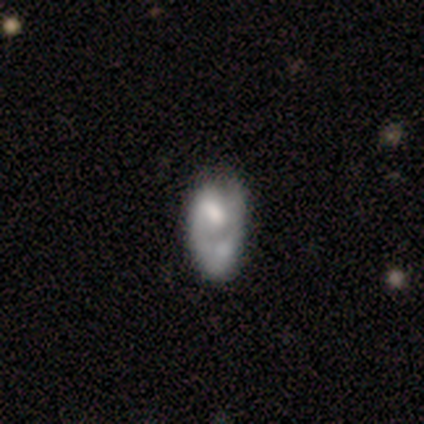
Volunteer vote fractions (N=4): smooth-or-featured: smooth: 50% (tied) | featured or disk: 50% (tied) | star or artifact: 0%
  how-rounded: round: 50% (tied) | cigar-shaped: 50% (tied) | in between: 0%
  merging: none: 50% (tied) | minor disturbance: 50% (tied) | major disturbance: 0% | merger: 0%